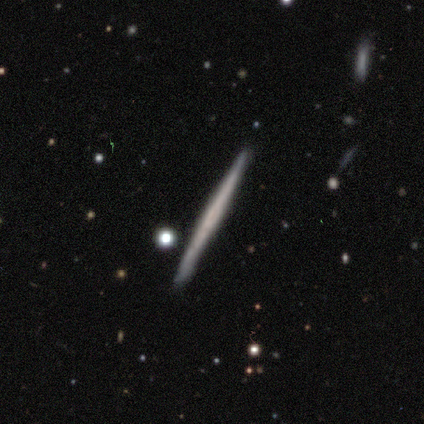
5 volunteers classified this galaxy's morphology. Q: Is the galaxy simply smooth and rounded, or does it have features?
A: smooth — 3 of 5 (60%).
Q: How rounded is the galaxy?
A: cigar-shaped — 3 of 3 (100%).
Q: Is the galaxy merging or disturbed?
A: none — 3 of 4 (75%).